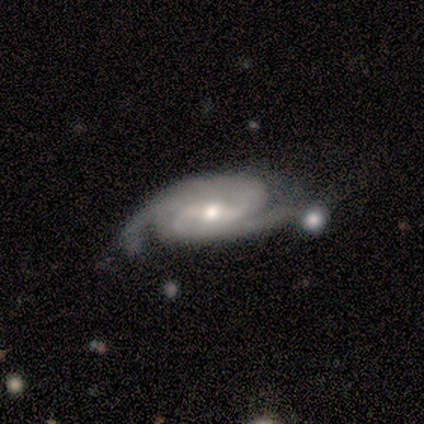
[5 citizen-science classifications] This is clearly a featured or disk galaxy (100%). It is clearly not viewed edge-on (100%). Bar: likely weak (60%). Spiral arm pattern: clearly yes (80%). Spiral arm count: clearly 2 (100%). Spiral winding: possibly tight (50%, tied with medium). Central bulge: likely moderate (60%). Merging: clearly none (80%).